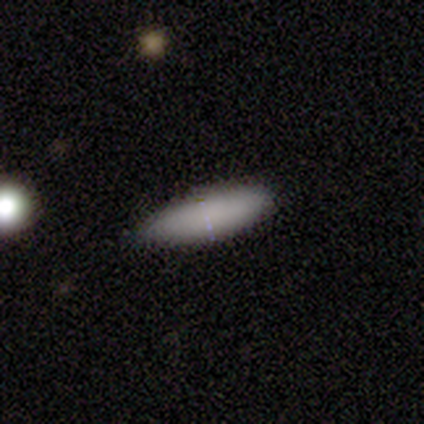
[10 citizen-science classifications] Smooth or featured? 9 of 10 (90%) said smooth. How rounded? 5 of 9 (56%) said in between. Merging? 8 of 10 (80%) said none.